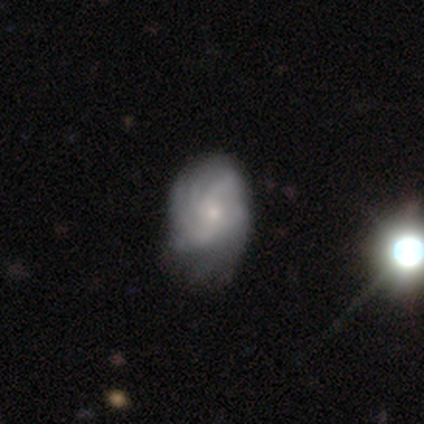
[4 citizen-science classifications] smooth_or_featured: smooth (p=0.50) [tied with: featured or disk p=0.50]
how_rounded: in between (p=1.00)
merging: none (p=1.00)